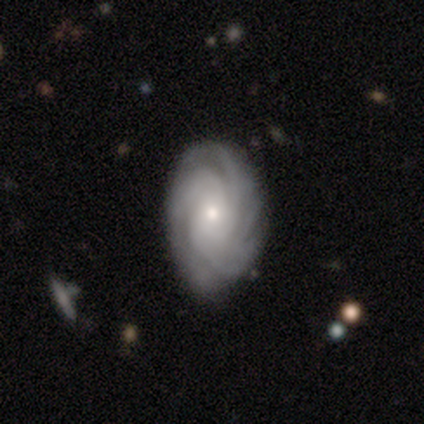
smooth_or_featured: featured or disk (p=0.80) [alt: smooth p=0.11]
disk_edge_on: no (p=0.89) [alt: yes p=0.11]
bar: no (p=0.81) [alt: strong p=0.10]
has_spiral_arms: yes (p=1.00)
spiral_winding: tight (p=0.87) [alt: medium p=0.13]
spiral_arm_count: 4 (p=0.26) [tied with: more than 4 p=0.26]
bulge_size: small (p=0.71) [alt: moderate p=0.29]
merging: none (p=0.78) [alt: minor disturbance p=0.20]